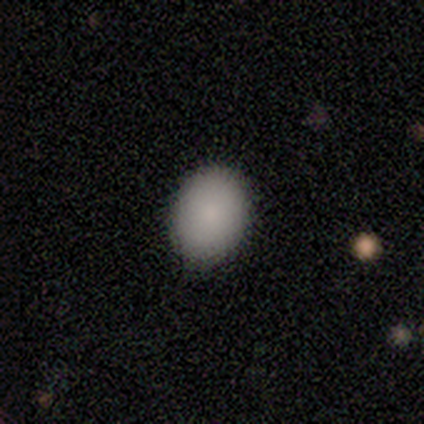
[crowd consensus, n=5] smooth-or-featured: smooth: 80% | star or artifact: 20% | featured or disk: 0%
  how-rounded: round: 50% (tied) | in between: 50% (tied) | cigar-shaped: 0%
  merging: none: 100% | minor disturbance: 0% | major disturbance: 0% | merger: 0%